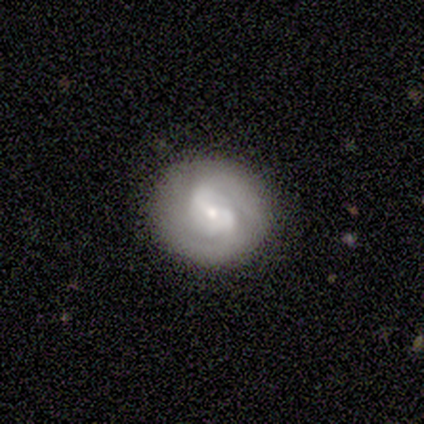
A featured or disk galaxy (80%) with a weak bar (75%), 2 (100%) tight (50%) spiral arms (100%) and a small central bulge (75%).

Vote fractions:
- Smooth or featured? featured or disk: 80% / smooth: 20% / star or artifact: 0%
- Edge-on disk? no: 100% / yes: 0%
- Bar? weak: 75% / no: 25% / strong: 0%
- Spiral arms? yes: 100% / no: 0%
- Spiral winding? tight: 50% / medium: 25% / loose: 25%
- Spiral arm count? 2: 100% / 1: 0% / 3: 0% / 4: 0% / more than 4: 0% / can't tell: 0%
- Bulge size? small: 75% / large: 25% / dominant: 0% / moderate: 0% / none: 0%
- Merging? none: 80% / major disturbance: 20% / minor disturbance: 0% / merger: 0%